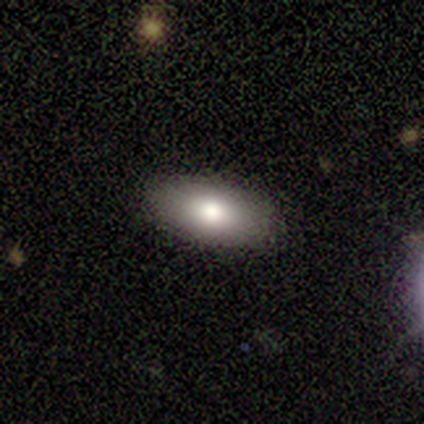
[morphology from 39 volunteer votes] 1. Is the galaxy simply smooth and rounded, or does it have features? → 85% smooth, 8% featured or disk, 8% star or artifact.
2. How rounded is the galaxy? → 94% in between, 6% cigar-shaped, 0% round.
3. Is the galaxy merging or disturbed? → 94% none, 6% minor disturbance, 0% major disturbance, 0% merger.